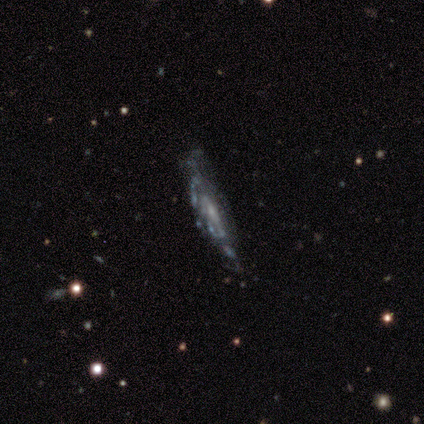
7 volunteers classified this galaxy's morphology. A featured or disk galaxy (86%) viewed edge-on (50%, tied with no) with no central bulge (67%).

Vote fractions:
- Smooth or featured? featured or disk: 86% / star or artifact: 14% / smooth: 0%
- Edge-on disk? yes: 50% (tied) / no: 50% (tied)
- Edge-on bulge? none: 67% / rounded: 33% / boxy: 0%
- Merging? none: 50% (tied) / minor disturbance: 50% (tied) / major disturbance: 0% / merger: 0%